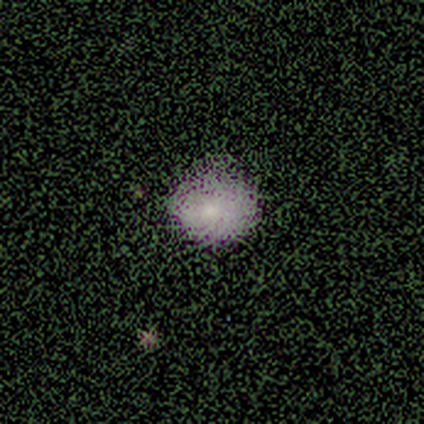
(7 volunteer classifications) Overall: smooth (71%). How rounded: in between (60%; round 40%). Merging: none (60%; minor disturbance 20%).